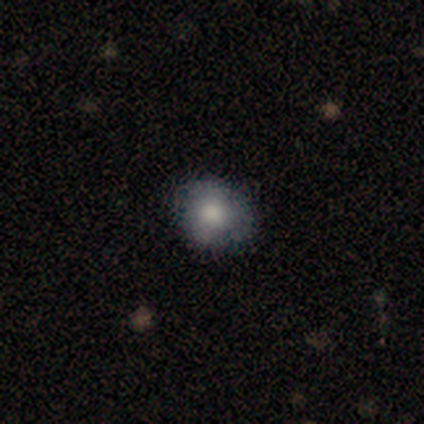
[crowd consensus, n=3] Volunteers were most divided on "smooth or featured": smooth: 67%, star or artifact: 33%, featured or disk: 0%. More confident: how rounded — in between (100%); merging — none (100%).